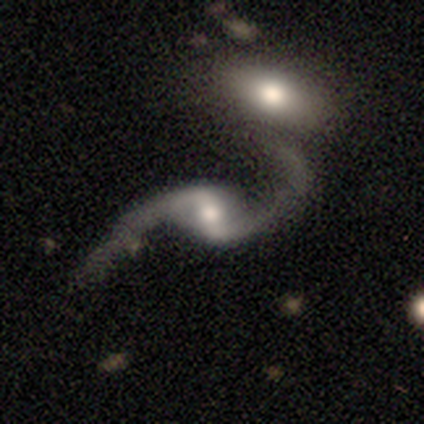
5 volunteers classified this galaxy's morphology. Smooth or featured? 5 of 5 (100%) said featured or disk. Edge-on disk? 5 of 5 (100%) said no. Bar? 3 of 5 (60%) said strong. Spiral arms? 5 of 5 (100%) said yes. Spiral winding? 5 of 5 (100%) said loose. Spiral arm count? 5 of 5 (100%) said 2. Bulge size? 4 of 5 (80%) said moderate. Merging? 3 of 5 (60%) said merger.